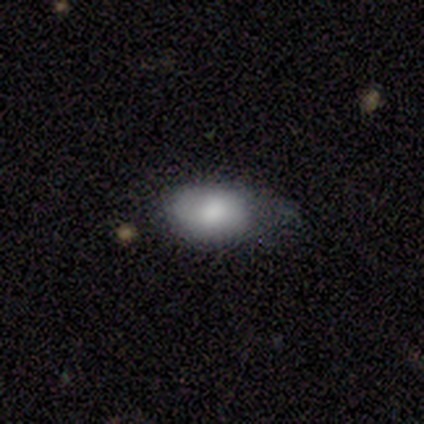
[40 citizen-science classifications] This is likely a smooth galaxy (68%). How rounded: clearly in between (100%). Merging: possibly none (53%).